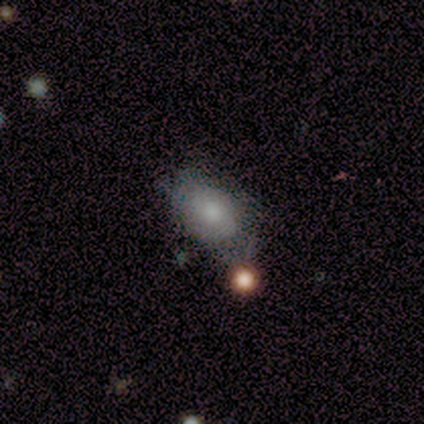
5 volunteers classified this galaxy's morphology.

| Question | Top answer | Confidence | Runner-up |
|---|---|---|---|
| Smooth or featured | smooth | 80% | star or artifact (20%) |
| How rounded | in between | 100% | — |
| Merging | none | 50% | minor disturbance (25%) |